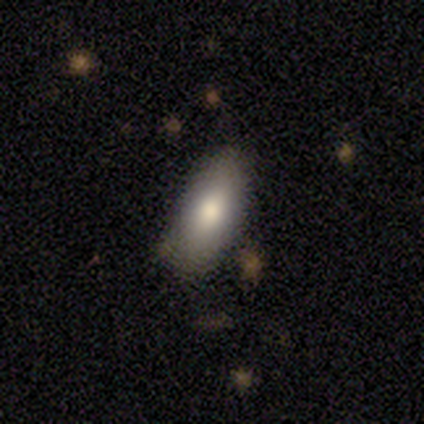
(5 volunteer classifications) Q: Smooth or featured?
A: smooth (100%)
Q: How rounded?
A: in between (100%)
Q: Merging?
A: none (100%)